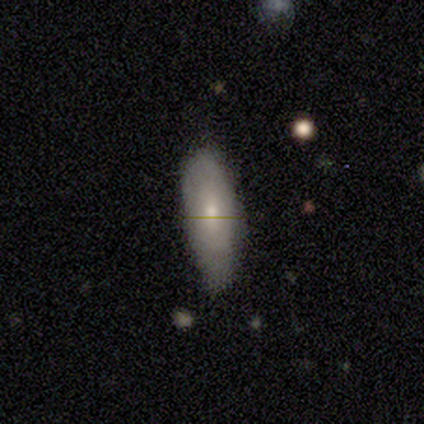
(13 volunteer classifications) A smooth galaxy with no disk features (85%) that is in between round and cigar-shaped (64%).

Vote fractions:
- Smooth or featured? smooth: 85% / featured or disk: 15% / star or artifact: 0%
- How rounded? in between: 64% / cigar-shaped: 36% / round: 0%
- Merging? none: 46% / minor disturbance: 38% / major disturbance: 8% / merger: 8%